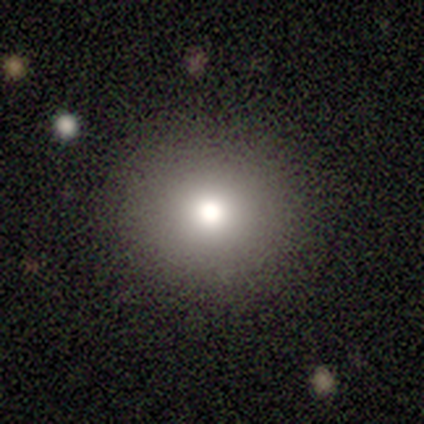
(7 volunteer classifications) smooth 86%, star or artifact 14%, featured or disk 0%. Down the decision tree: how rounded — round (100%); merging — none (83%).